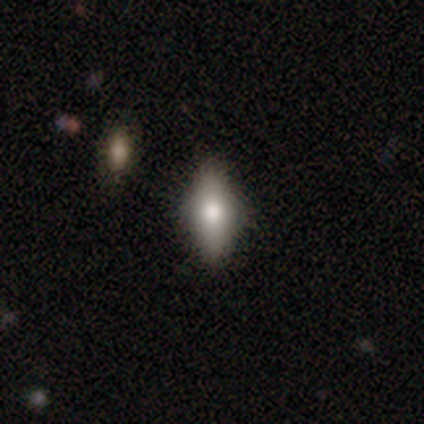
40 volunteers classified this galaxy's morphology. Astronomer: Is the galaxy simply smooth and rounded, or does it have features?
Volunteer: smooth — 70%.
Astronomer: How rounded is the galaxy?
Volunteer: in between — 79%.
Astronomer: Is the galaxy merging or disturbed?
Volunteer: none — 88%.